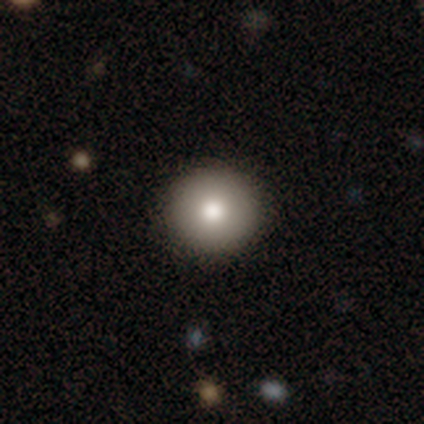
smooth-or-featured: smooth: 85% | featured or disk: 10% | star or artifact: 5%
  how-rounded: round: 90% | in between: 8% | cigar-shaped: 1%
  merging: none: 87% | minor disturbance: 9% | major disturbance: 5% | merger: 0%